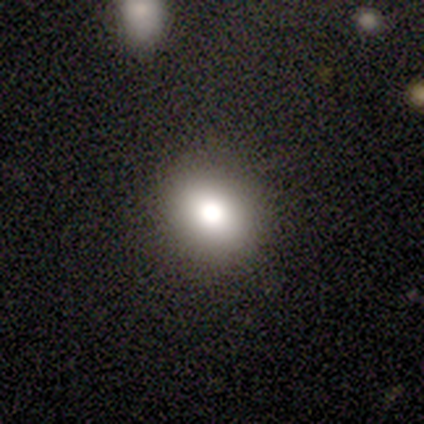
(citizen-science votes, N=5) smooth_or_featured: smooth (p=0.80) [alt: featured or disk p=0.20]
how_rounded: round (p=0.75) [alt: in between p=0.25]
merging: none (p=1.00)